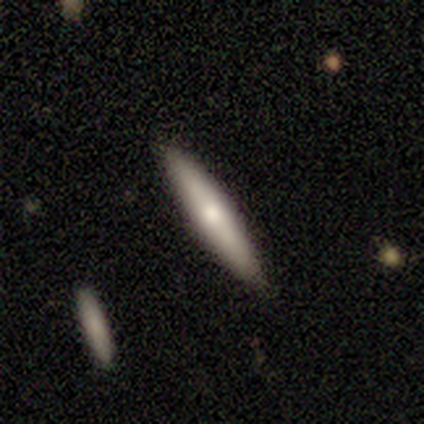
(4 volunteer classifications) Q: Smooth or featured?
A: smooth (50%); tied with: featured or disk (50%)
Q: How rounded?
A: cigar-shaped (100%)
Q: Merging?
A: none (100%)